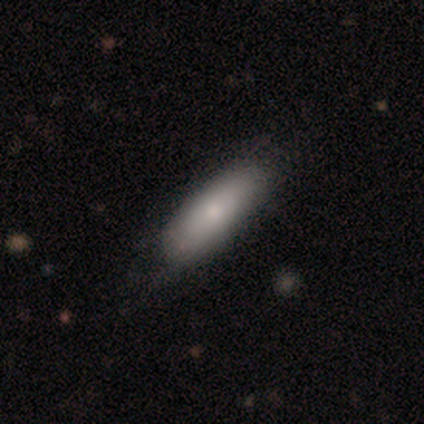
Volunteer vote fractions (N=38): Smooth or featured?
  - smooth: 76% *
  - featured or disk: 18%
  - star or artifact: 5%
How rounded?
  - in between: 52% *
  - cigar-shaped: 45%
  - round: 3%
Merging?
  - none: 83% *
  - minor disturbance: 14%
  - major disturbance: 3%
  - merger: 0%